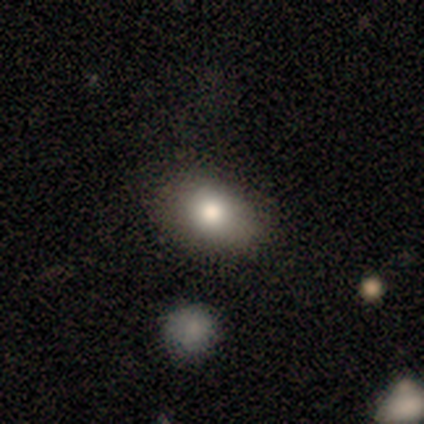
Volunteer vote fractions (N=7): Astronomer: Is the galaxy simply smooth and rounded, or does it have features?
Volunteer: smooth — 86%.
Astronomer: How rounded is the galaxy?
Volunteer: in between — 100%.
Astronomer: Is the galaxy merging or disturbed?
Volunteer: none — 83%.